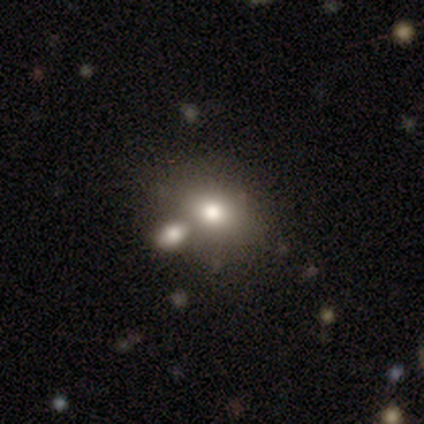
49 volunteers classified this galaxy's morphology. Smooth or featured? 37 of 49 (76%) said smooth. How rounded? 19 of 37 (51%) said in between. Merging? 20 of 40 (50%) said merger.